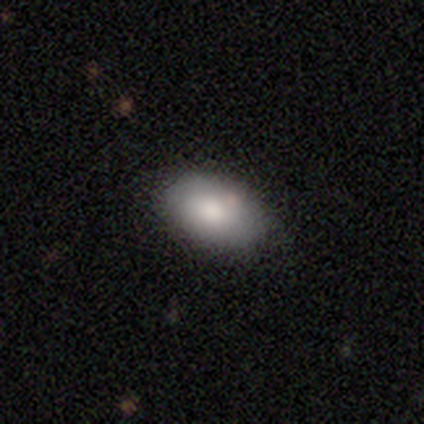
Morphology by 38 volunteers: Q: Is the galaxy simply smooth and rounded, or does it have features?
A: smooth — 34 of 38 (89%).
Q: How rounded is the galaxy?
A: in between — 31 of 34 (91%).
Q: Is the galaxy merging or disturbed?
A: none — 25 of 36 (69%).